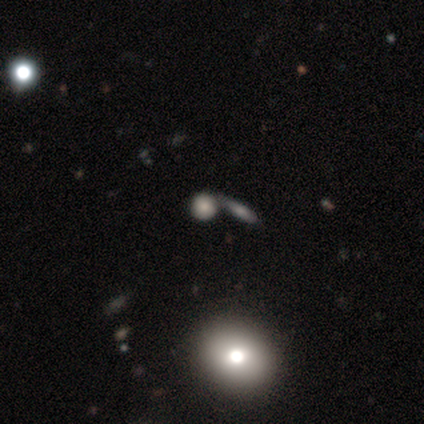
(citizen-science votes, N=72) smooth-or-featured: smooth: 75% | featured or disk: 12% | star or artifact: 12%
  how-rounded: round: 78% | in between: 15% | cigar-shaped: 7%
  merging: none: 46% | merger: 44% | minor disturbance: 6% | major disturbance: 3%